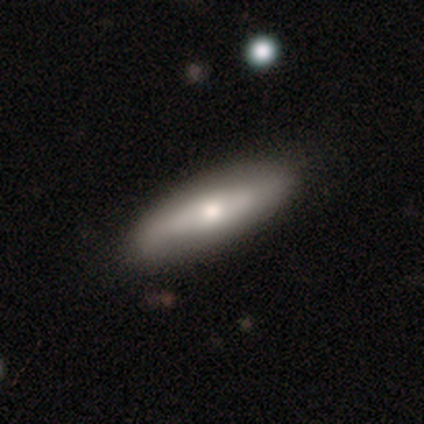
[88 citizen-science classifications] Overall: smooth (58%; featured or disk 34%). How rounded: cigar-shaped (57%; in between 41%). Merging: none (84%).